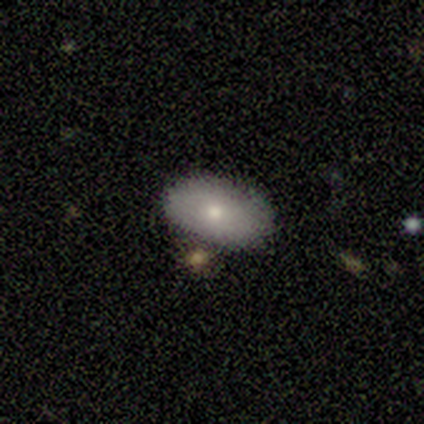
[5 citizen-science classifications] This appears to be a smooth galaxy with no disk features (80%) that is in between round and cigar-shaped (100%). Merging: none (100%).